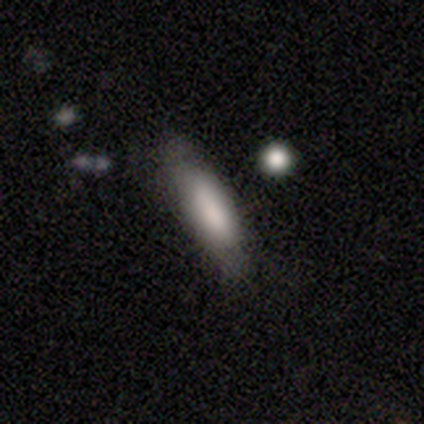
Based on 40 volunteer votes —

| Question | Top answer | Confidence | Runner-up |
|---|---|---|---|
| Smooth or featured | smooth | 82% | featured or disk (12%) |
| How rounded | in between | 58% | cigar-shaped (39%) |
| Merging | none | 63% | minor disturbance (32%) |